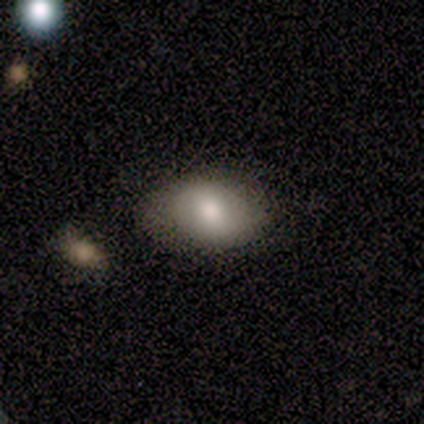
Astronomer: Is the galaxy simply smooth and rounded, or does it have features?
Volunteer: smooth — 100%.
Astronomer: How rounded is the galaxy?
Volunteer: in between — 100%.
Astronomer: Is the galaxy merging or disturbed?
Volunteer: none — 80%.